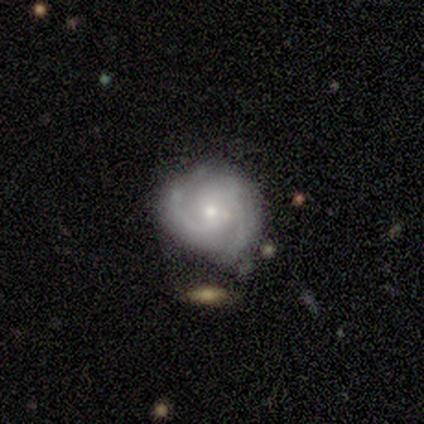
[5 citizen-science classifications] smooth-or-featured: featured or disk: 100% | smooth: 0% | star or artifact: 0%
  disk-edge-on: no: 100% | yes: 0%
    bar: no: 80% | weak: 20% | strong: 0%
    has-spiral-arms: yes: 100% | no: 0%
      spiral-winding: tight: 80% | medium: 20% | loose: 0%
      spiral-arm-count: 2: 80% | 3: 20% | 1: 0% | 4: 0% | more than 4: 0% | can't tell: 0%
    bulge-size: small: 80% | moderate: 20% | dominant: 0% | large: 0% | none: 0%
  merging: none: 60% | minor disturbance: 40% | major disturbance: 0% | merger: 0%